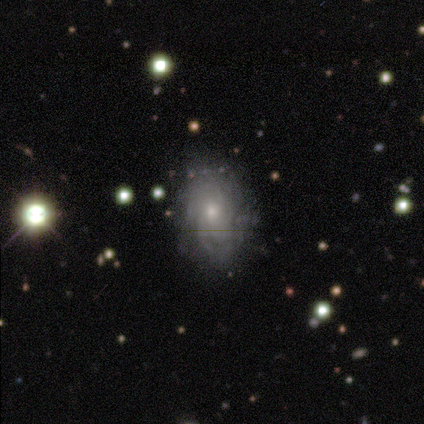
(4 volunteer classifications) Smooth or featured? smooth (50%, tied with featured or disk)
How rounded? in between (100%)
Merging? none (75%)